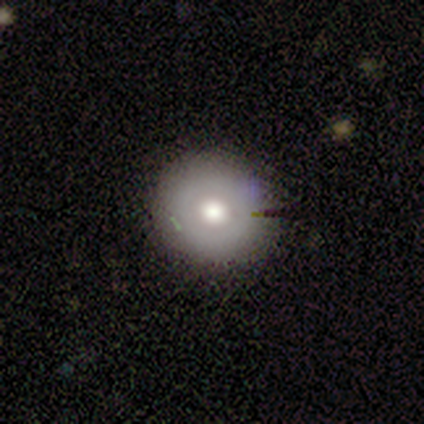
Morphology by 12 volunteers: A smooth galaxy with no disk features (50%, tied with featured or disk) that is round (83%).

Vote fractions:
- Smooth or featured? smooth: 50% (tied) / featured or disk: 50% (tied) / star or artifact: 0%
- How rounded? round: 83% / in between: 17% / cigar-shaped: 0%
- Merging? none: 75% / minor disturbance: 17% / major disturbance: 8% / merger: 0%